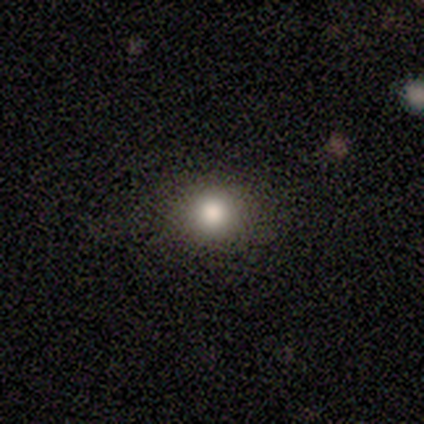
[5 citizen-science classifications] smooth-or-featured: smooth: 60% | star or artifact: 40% | featured or disk: 0%
  how-rounded: round: 100% | in between: 0% | cigar-shaped: 0%
  merging: none: 67% | major disturbance: 33% | minor disturbance: 0% | merger: 0%